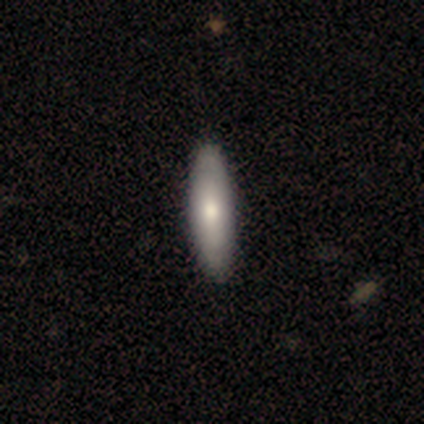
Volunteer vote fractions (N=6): A smooth galaxy with no disk features (83%) that is cigar-shaped (80%). Merging: none (100%).